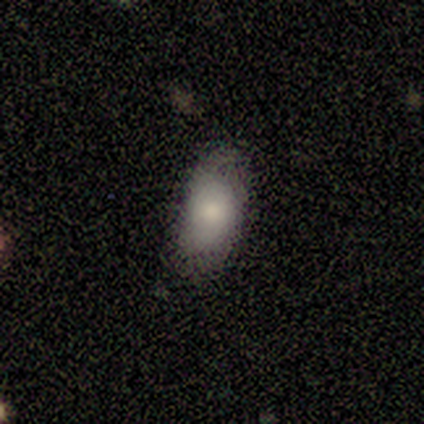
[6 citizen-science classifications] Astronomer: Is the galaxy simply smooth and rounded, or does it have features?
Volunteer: smooth — 100%.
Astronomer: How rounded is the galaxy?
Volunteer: in between — 67%.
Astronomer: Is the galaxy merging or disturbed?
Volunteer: none — 83%.